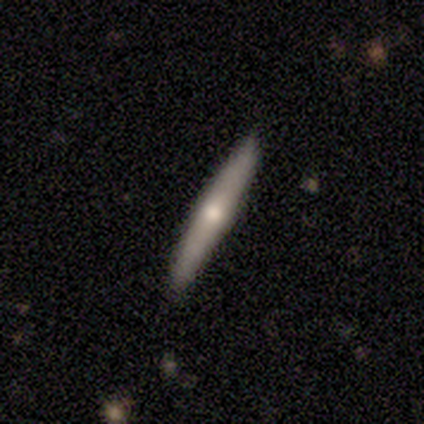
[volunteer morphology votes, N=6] A featured or disk galaxy (67%) viewed edge-on (100%) with a rounded central bulge (100%).

Vote fractions:
- Smooth or featured? featured or disk: 67% / smooth: 33% / star or artifact: 0%
- Edge-on disk? yes: 100% / no: 0%
- Edge-on bulge? rounded: 100% / boxy: 0% / none: 0%
- Merging? none: 100% / minor disturbance: 0% / major disturbance: 0% / merger: 0%